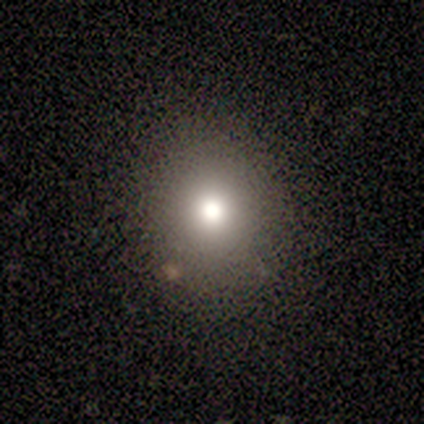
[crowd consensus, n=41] This is clearly a smooth galaxy (80%). How rounded: clearly round (82%). Merging: likely none (77%).